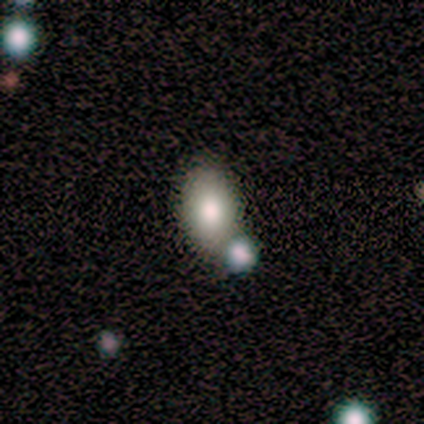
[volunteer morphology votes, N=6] Q: Smooth or featured?
A: smooth (100%)
Q: How rounded?
A: in between (83%); runner-up: round (17%)
Q: Merging?
A: none (67%); runner-up: minor disturbance (17%)